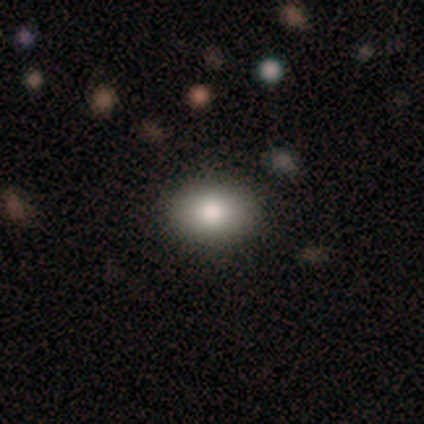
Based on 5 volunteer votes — Volunteers were most divided on "smooth or featured": smooth: 80%, featured or disk: 20%, star or artifact: 0%. More confident: how rounded — in between (100%); merging — none (80%).